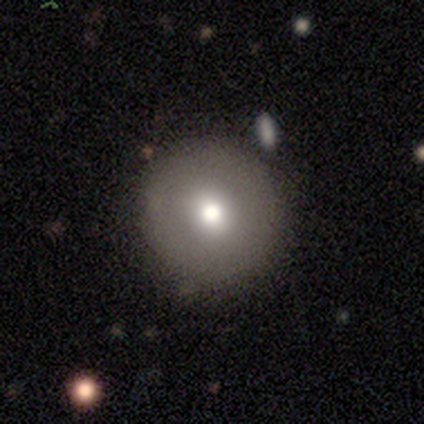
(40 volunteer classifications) smooth_or_featured: smooth (p=0.75) [alt: featured or disk p=0.15]
how_rounded: round (p=1.00)
merging: none (p=0.97) [alt: minor disturbance p=0.03]